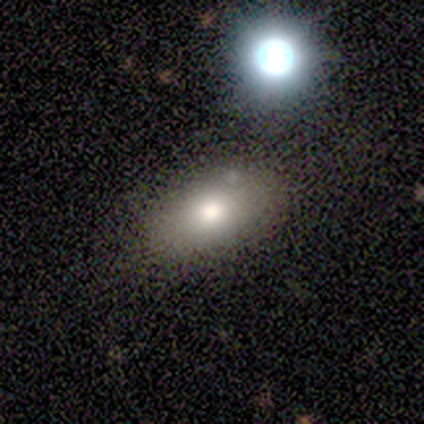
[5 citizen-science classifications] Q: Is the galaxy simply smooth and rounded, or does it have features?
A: smooth — 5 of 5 (100%).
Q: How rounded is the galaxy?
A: in between — 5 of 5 (100%).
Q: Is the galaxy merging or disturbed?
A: none — 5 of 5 (100%).